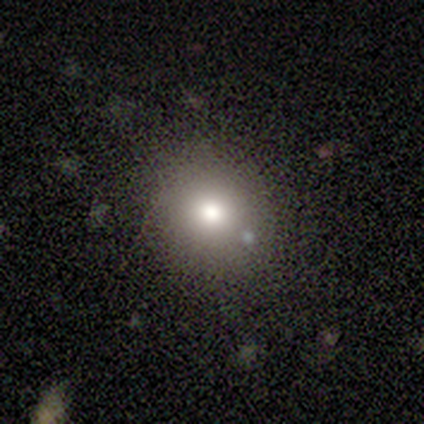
A smooth galaxy with no disk features (79%) that is round (87%). Merging: none (97%).